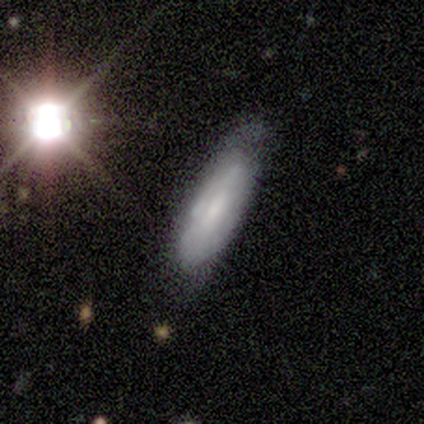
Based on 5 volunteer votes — Volunteers were most divided on "smooth or featured": featured or disk: 60%, smooth: 40%, star or artifact: 0%. More confident: edge-on disk — no (100%); merging — none (80%); bar — no (67%); spiral arms — no (67%); bulge size — none (67%).